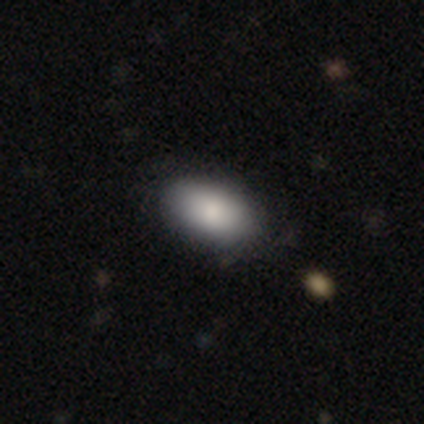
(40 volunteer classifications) Volunteers were most divided on "merging": none: 56%, minor disturbance: 10%, merger: 5%, major disturbance: 3%. More confident: how rounded — in between (97%); smooth or featured — smooth (82%).